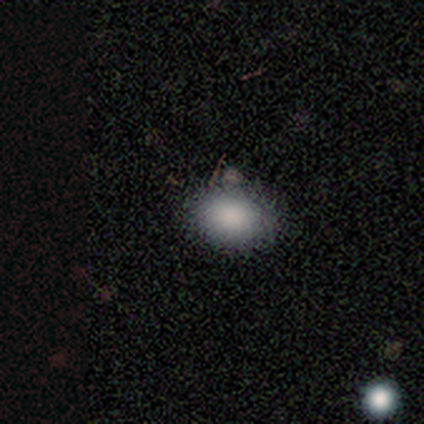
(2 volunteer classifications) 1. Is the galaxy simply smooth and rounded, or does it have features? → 50% smooth (tied), 50% star or artifact (tied), 0% featured or disk.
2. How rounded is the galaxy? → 100% in between, 0% round, 0% cigar-shaped.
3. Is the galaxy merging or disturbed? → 100% minor disturbance, 0% none, 0% major disturbance, 0% merger.